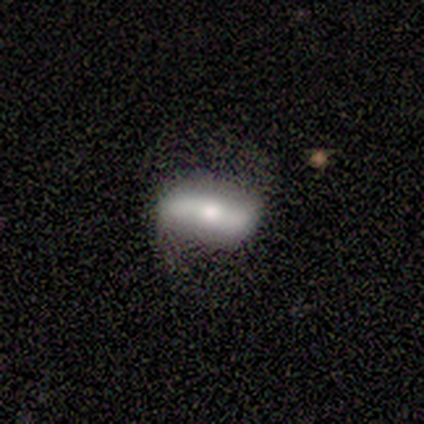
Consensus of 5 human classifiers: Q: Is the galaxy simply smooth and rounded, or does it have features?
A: featured or disk — 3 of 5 (60%).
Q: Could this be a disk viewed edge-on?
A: no — 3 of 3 (100%).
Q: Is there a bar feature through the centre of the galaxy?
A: strong — 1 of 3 (33%, tied with weak and no).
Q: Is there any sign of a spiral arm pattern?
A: no — 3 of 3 (100%).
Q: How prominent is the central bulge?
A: moderate — 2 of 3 (67%).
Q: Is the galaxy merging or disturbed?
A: none — 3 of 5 (60%).